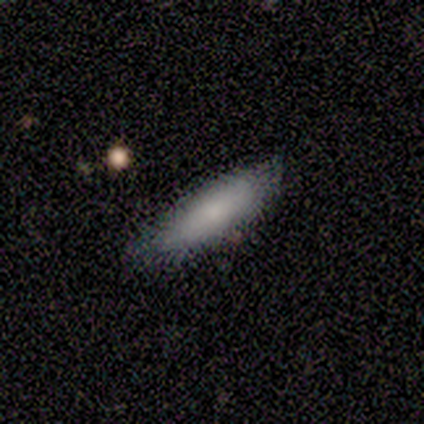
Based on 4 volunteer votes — Smooth or featured?
  - smooth: 50% * (tied)
  - featured or disk: 50% * (tied)
  - star or artifact: 0%
How rounded?
  - cigar-shaped: 100% *
  - round: 0%
  - in between: 0%
Merging?
  - none: 100% *
  - minor disturbance: 0%
  - major disturbance: 0%
  - merger: 0%